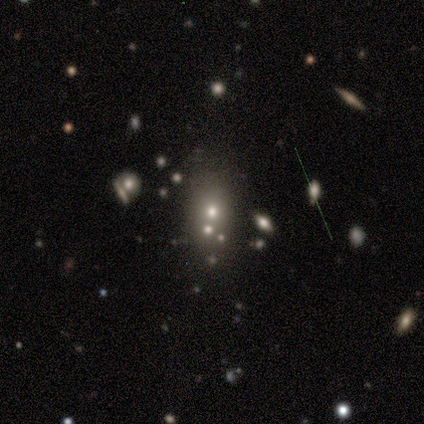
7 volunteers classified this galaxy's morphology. smooth-or-featured: smooth: 71% | featured or disk: 14% | star or artifact: 14%
  how-rounded: in between: 60% | round: 20% | cigar-shaped: 20%
  merging: none: 50% | merger: 33% | minor disturbance: 17% | major disturbance: 0%